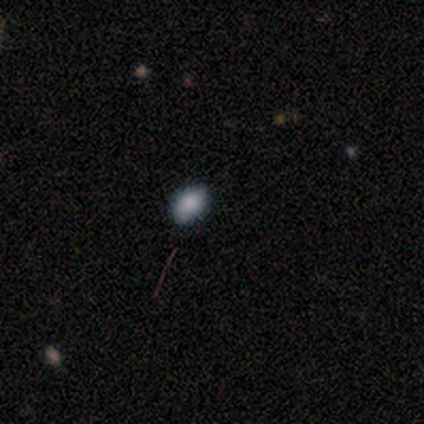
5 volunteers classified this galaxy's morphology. Smooth or featured?
  - smooth: 100% *
  - featured or disk: 0%
  - star or artifact: 0%
How rounded?
  - round: 40% * (tied)
  - in between: 40% * (tied)
  - cigar-shaped: 20%
Merging?
  - none: 60% *
  - minor disturbance: 40%
  - major disturbance: 0%
  - merger: 0%